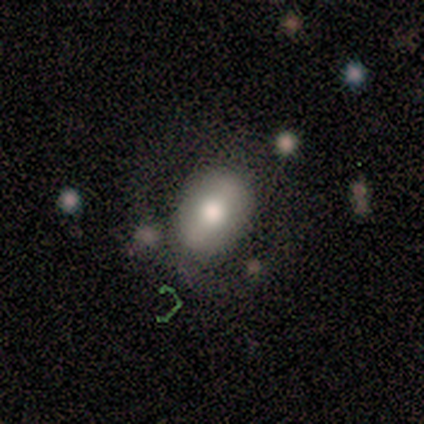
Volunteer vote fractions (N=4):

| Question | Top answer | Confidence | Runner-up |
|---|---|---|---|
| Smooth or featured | smooth | 50% | tied: featured or disk (50%) |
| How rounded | in between | 100% | — |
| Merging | none | 75% | merger (25%) |